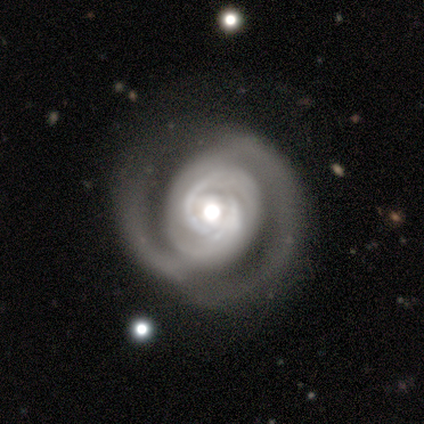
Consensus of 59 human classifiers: smooth_or_featured: featured or disk (p=0.93) [alt: smooth p=0.05]
disk_edge_on: no (p=1.00)
bar: no (p=0.75) [alt: strong p=0.15]
has_spiral_arms: yes (p=1.00)
spiral_winding: tight (p=0.65) [alt: medium p=0.29]
spiral_arm_count: 2 (p=0.51) [alt: 4 p=0.16]
bulge_size: moderate (p=0.49) [alt: large p=0.45]
merging: none (p=0.60) [alt: minor disturbance p=0.26]